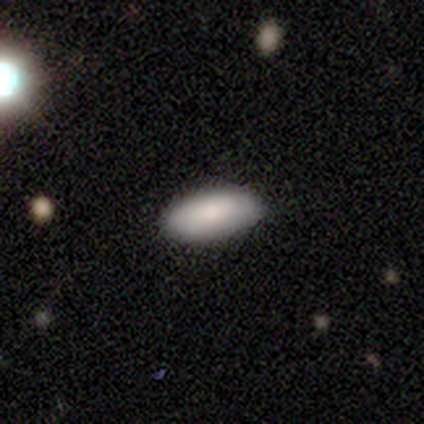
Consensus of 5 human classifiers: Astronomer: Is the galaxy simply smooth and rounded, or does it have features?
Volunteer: smooth — 80%.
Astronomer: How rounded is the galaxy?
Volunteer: in between — 75%.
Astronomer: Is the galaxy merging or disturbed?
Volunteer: none — 100%.